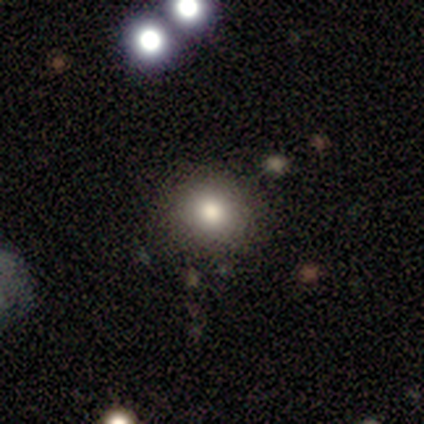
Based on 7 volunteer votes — smooth_or_featured: star or artifact (p=0.57) [alt: smooth p=0.43]